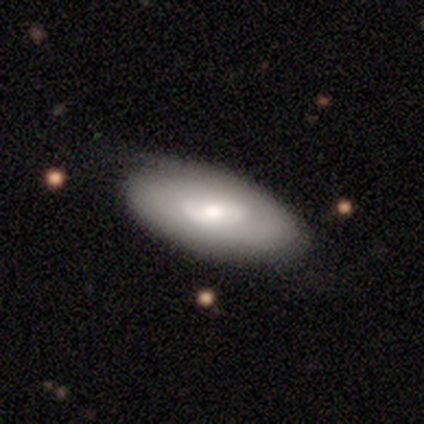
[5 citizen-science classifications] Q: Smooth or featured?
A: smooth (80%); runner-up: featured or disk (20%)
Q: How rounded?
A: in between (100%)
Q: Merging?
A: none (100%)